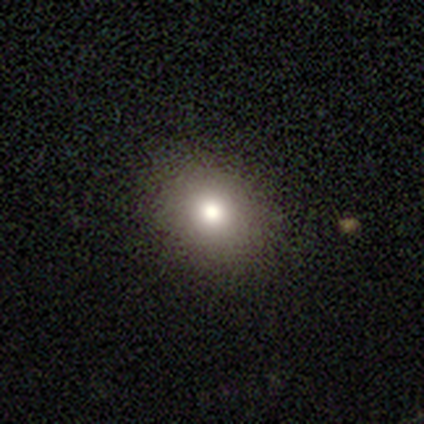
smooth_or_featured: smooth (p=0.77) [alt: star or artifact p=0.15]
how_rounded: in between (p=0.52) [alt: round p=0.48]
merging: none (p=0.46) [alt: minor disturbance p=0.04]